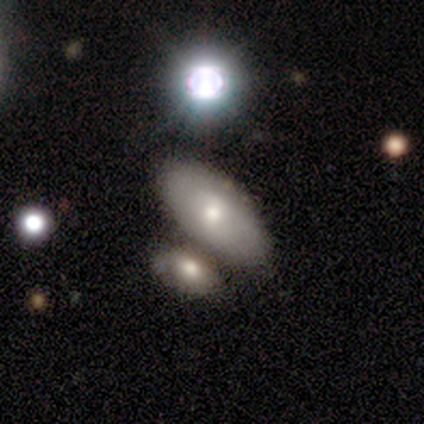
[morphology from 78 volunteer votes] Overall: smooth (71%). How rounded: in between (93%). Merging: none (40%; merger 33%).